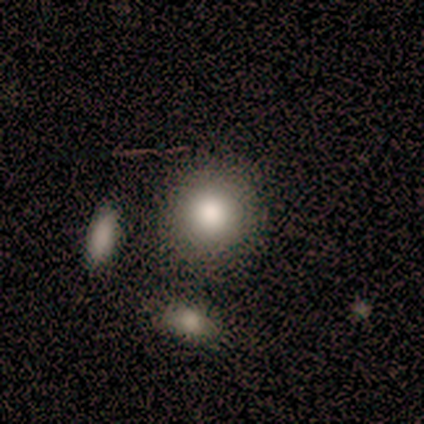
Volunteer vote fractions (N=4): Volunteers were most divided on "merging": merger: 50%, none: 25%, minor disturbance: 25%, major disturbance: 0%. More confident: how rounded — round (100%); smooth or featured — smooth (75%).